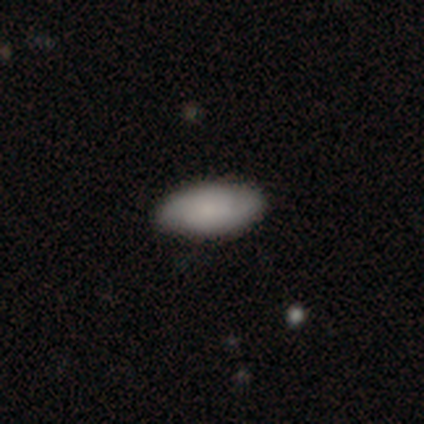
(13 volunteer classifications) Smooth or featured?
  - smooth: 77% *
  - star or artifact: 15%
  - featured or disk: 8%
How rounded?
  - in between: 100% *
  - round: 0%
  - cigar-shaped: 0%
Merging?
  - none: 100% *
  - minor disturbance: 0%
  - major disturbance: 0%
  - merger: 0%